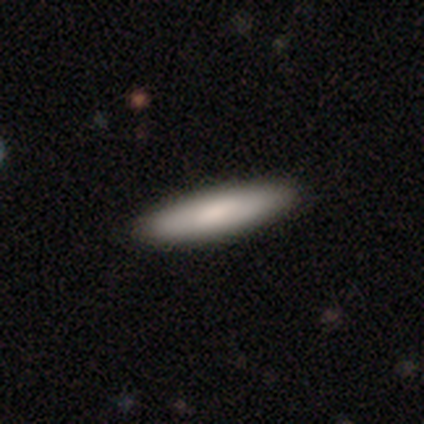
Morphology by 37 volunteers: Smooth or featured? 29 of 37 (78%) said smooth. How rounded? 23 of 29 (79%) said cigar-shaped. Merging? 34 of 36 (94%) said none.